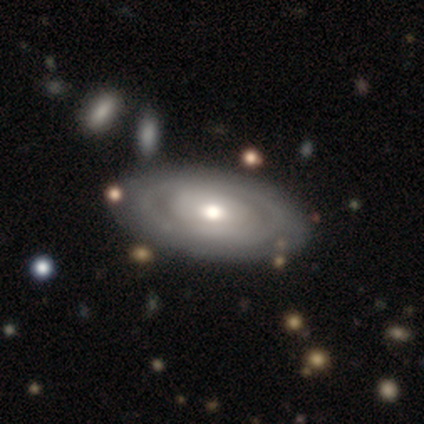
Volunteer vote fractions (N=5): Smooth or featured: featured or disk — 80% (smooth — 20%)
Edge-on disk: no — 75% (yes — 25%)
Bar: no — 100%
Spiral arms: no — 100%
Bulge size: large — 67% (moderate — 33%)
Merging: none — 100%